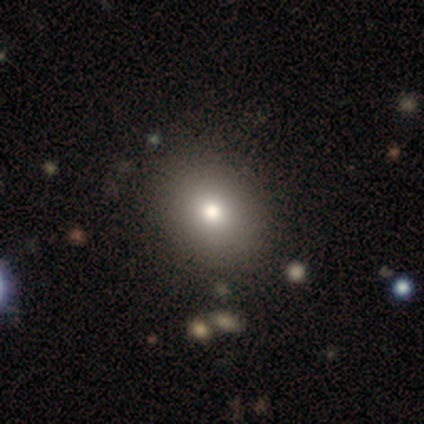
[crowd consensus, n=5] smooth 40% (tied), star or artifact 40% (tied), featured or disk 20%. Down the decision tree: how rounded — round (50%, tied with in between); merging — none (67%).